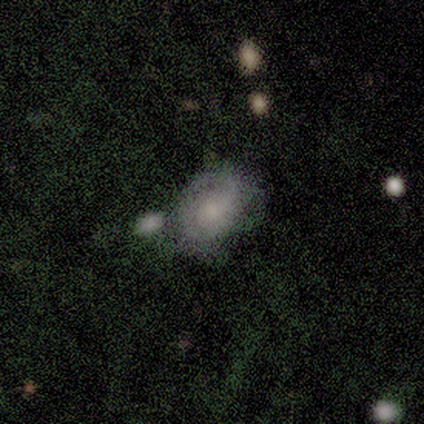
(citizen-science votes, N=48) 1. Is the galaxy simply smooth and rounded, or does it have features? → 48% featured or disk, 44% smooth, 8% star or artifact.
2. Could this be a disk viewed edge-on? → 100% no, 0% yes.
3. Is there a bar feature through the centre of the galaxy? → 87% no, 9% weak, 4% strong.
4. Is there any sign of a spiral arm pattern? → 70% yes, 30% no.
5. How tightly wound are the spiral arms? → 56% tight, 38% medium, 6% loose.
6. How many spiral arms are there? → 81% can't tell, 12% 2, 6% 3, 0% 1, 0% 4, 0% more than 4.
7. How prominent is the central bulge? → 52% small, 35% moderate, 9% none, 4% large, 0% dominant.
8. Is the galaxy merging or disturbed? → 45% none, 25% minor disturbance, 25% merger, 5% major disturbance.